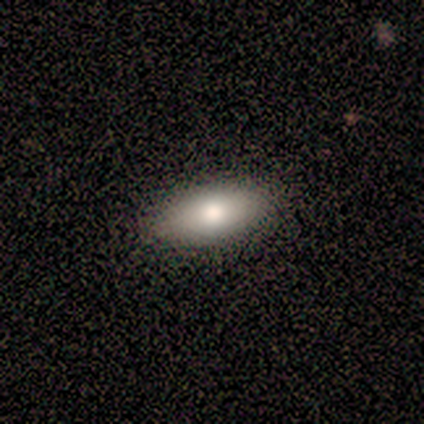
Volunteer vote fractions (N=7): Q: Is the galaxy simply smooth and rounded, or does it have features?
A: smooth — 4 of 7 (57%).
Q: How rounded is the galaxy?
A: in between — 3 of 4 (75%).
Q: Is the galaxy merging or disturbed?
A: none — 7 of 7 (100%).